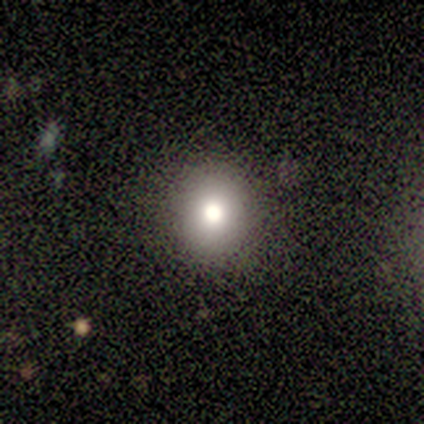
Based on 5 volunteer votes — A smooth galaxy with no disk features (40%, tied with featured or disk) that is round (50%, tied with in between). Merging: none (75%).